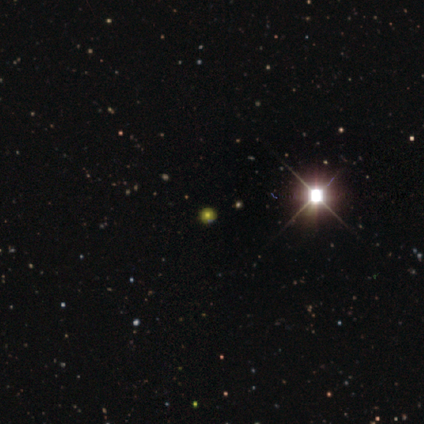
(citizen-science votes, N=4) Consensus on every question: smooth or featured — star or artifact (100%).